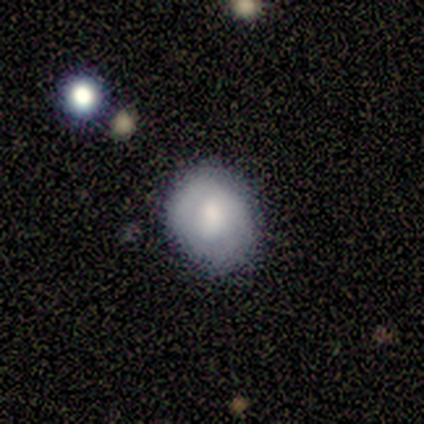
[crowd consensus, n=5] smooth-or-featured: smooth: 60% | featured or disk: 20% | star or artifact: 20%
  how-rounded: round: 67% | in between: 33% | cigar-shaped: 0%
  merging: none: 50% (tied) | minor disturbance: 50% (tied) | major disturbance: 0% | merger: 0%